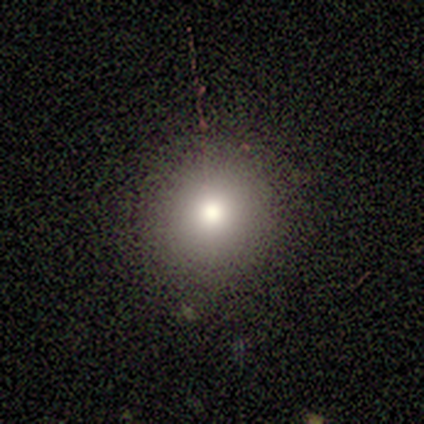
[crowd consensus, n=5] This is likely a smooth galaxy (60%). How rounded: clearly round (100%). Merging: clearly none (100%).